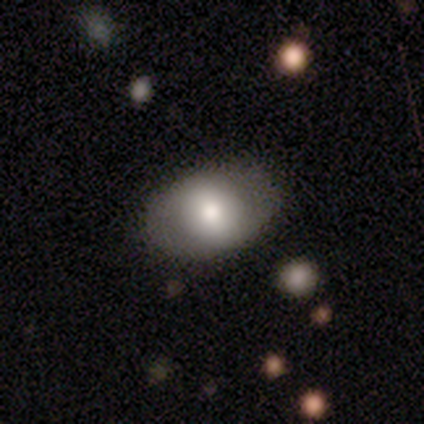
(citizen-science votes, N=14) Smooth or featured?
  - smooth: 71% *
  - featured or disk: 29%
  - star or artifact: 0%
How rounded?
  - in between: 90% *
  - round: 10%
  - cigar-shaped: 0%
Merging?
  - none: 100% *
  - minor disturbance: 0%
  - major disturbance: 0%
  - merger: 0%